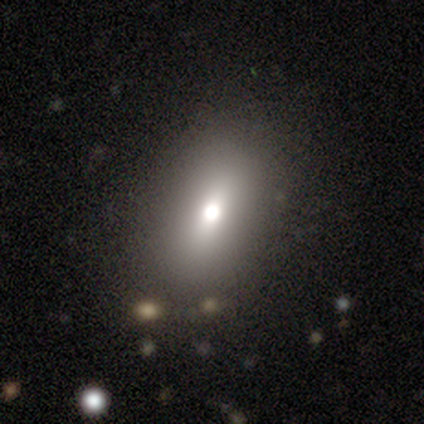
A smooth galaxy with no disk features (67%) that is in between round and cigar-shaped (93%). Merging: none (88%).